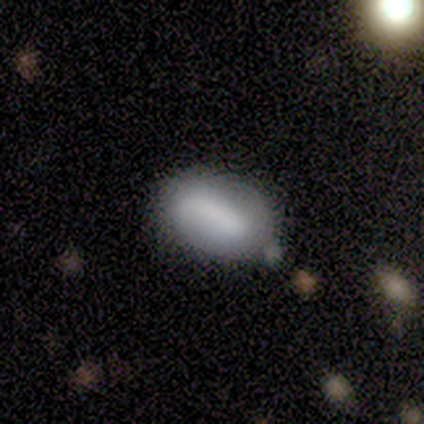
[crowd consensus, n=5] smooth_or_featured: smooth (p=0.80) [alt: featured or disk p=0.20]
how_rounded: in between (p=1.00)
merging: none (p=0.60) [alt: minor disturbance p=0.40]